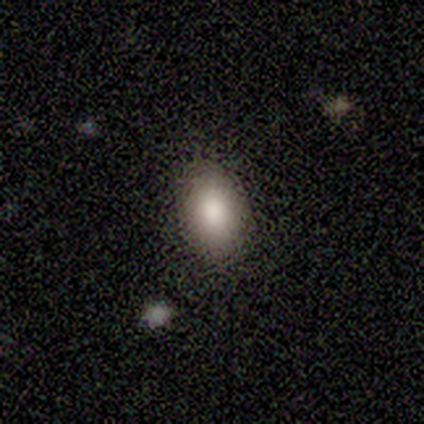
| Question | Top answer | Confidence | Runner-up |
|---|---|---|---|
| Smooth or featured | smooth | 80% | star or artifact (20%) |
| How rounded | in between | 75% | round (25%) |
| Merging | none | 100% | — |